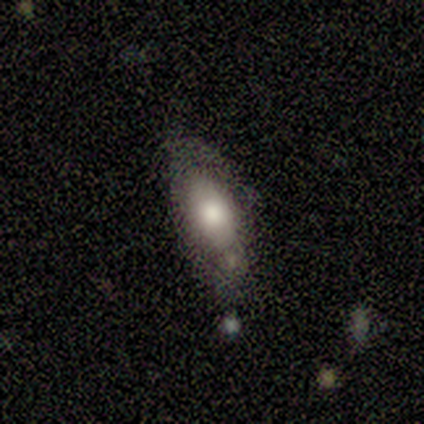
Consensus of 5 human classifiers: Smooth or featured? 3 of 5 (60%) said featured or disk. Edge-on disk? 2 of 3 (67%) said no. Bar? 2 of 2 (100%) said no. Spiral arms? 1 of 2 (50%, tied with no) said yes. Spiral winding? 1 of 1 (100%) said tight. Spiral arm count? 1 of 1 (100%) said can't tell. Bulge size? 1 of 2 (50%, tied with moderate) said large. Merging? 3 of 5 (60%) said none.